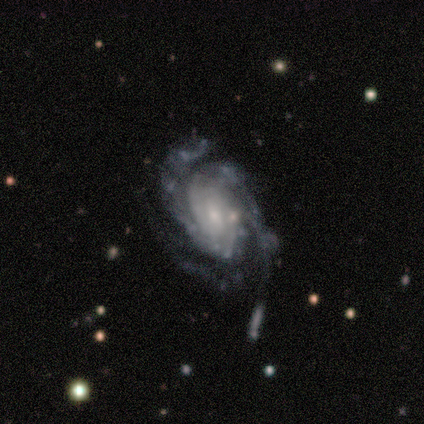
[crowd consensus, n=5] Volunteers were most divided on "merging": none: 50%, major disturbance: 25%, merger: 25%, minor disturbance: 0%. More confident: edge-on disk — no (100%); spiral arms — yes (100%); spiral winding — medium (100%); bar — no (67%); spiral arm count — 3 (67%); bulge size — small (67%); smooth or featured — featured or disk (60%).